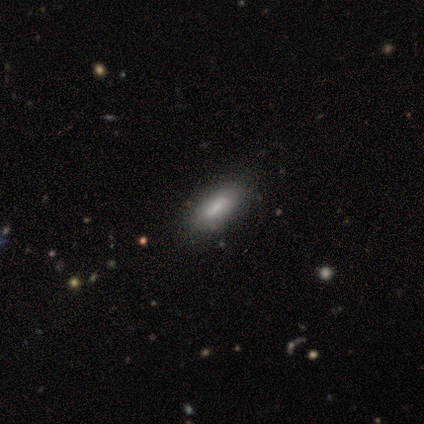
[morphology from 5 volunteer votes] smooth-or-featured: smooth: 100% | featured or disk: 0% | star or artifact: 0%
  how-rounded: cigar-shaped: 60% | in between: 40% | round: 0%
  merging: none: 100% | minor disturbance: 0% | major disturbance: 0% | merger: 0%